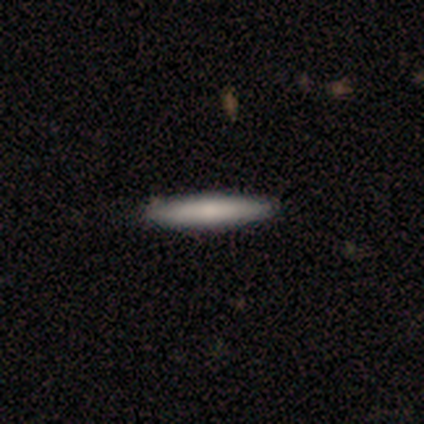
This appears to be a smooth galaxy with no disk features (40%, tied with featured or disk) that is cigar-shaped (100%). Merging: none (75%).